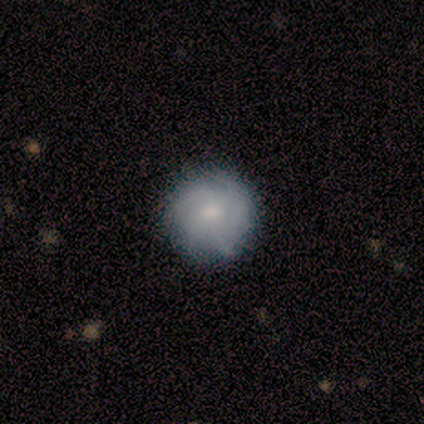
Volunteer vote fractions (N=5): This appears to be a featured or disk galaxy (60%) with a weak bar (50%, tied with no), 4 (50%, tied with can't tell) tight (50%, tied with medium) spiral arms (100%) and a small central bulge (100%). Merging: none (80%).